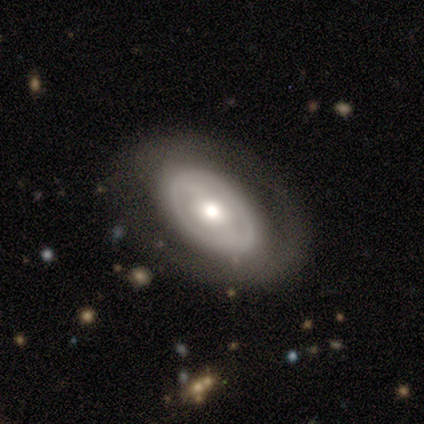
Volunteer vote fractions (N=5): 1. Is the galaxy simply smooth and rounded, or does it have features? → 60% featured or disk, 40% smooth, 0% star or artifact.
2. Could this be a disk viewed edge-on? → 100% no, 0% yes.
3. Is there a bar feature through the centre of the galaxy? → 67% no, 33% weak, 0% strong.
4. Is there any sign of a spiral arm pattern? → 100% no, 0% yes.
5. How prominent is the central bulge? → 67% moderate, 33% large, 0% dominant, 0% small, 0% none.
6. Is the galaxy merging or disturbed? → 60% none, 20% minor disturbance, 20% major disturbance, 0% merger.